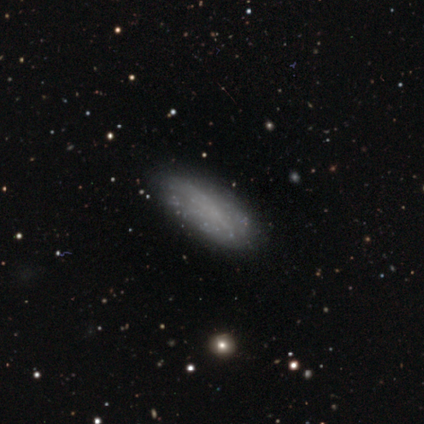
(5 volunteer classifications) smooth-or-featured: smooth: 80% | featured or disk: 20% | star or artifact: 0%
  how-rounded: in between: 75% | cigar-shaped: 25% | round: 0%
  merging: none: 100% | minor disturbance: 0% | major disturbance: 0% | merger: 0%